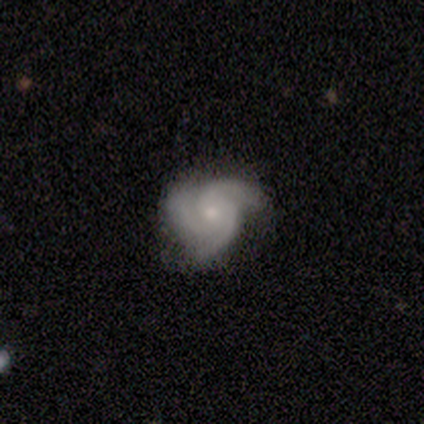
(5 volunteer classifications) Smooth or featured?
  - featured or disk: 100% *
  - smooth: 0%
  - star or artifact: 0%
Edge-on disk?
  - no: 100% *
  - yes: 0%
Bar?
  - no: 100% *
  - strong: 0%
  - weak: 0%
Spiral arms?
  - yes: 100% *
  - no: 0%
Spiral winding?
  - tight: 60% *
  - medium: 20%
  - loose: 20%
Spiral arm count?
  - 3: 100% *
  - 1: 0%
  - 2: 0%
  - 4: 0%
  - more than 4: 0%
  - can't tell: 0%
Bulge size?
  - small: 60% *
  - moderate: 20%
  - none: 20%
  - dominant: 0%
  - large: 0%
Merging?
  - none: 100% *
  - minor disturbance: 0%
  - major disturbance: 0%
  - merger: 0%